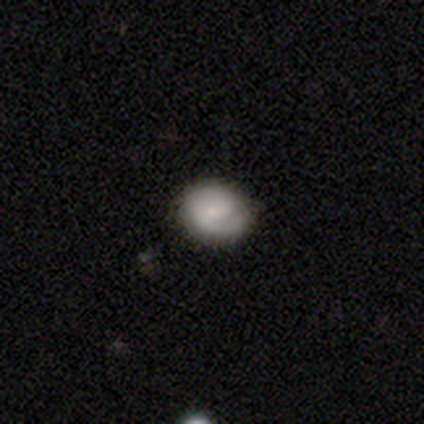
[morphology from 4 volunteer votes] A smooth galaxy with no disk features (50%, tied with featured or disk) that is round (100%). Merging: none (75%).